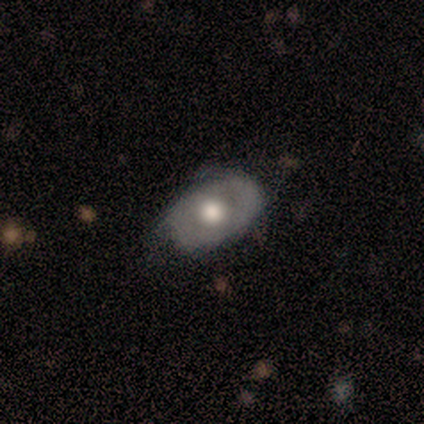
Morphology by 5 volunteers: smooth_or_featured: featured or disk (p=0.80) [alt: smooth p=0.20]
disk_edge_on: no (p=1.00)
bar: no (p=0.75) [alt: weak p=0.25]
has_spiral_arms: no (p=0.75) [alt: yes p=0.25]
bulge_size: moderate (p=0.75) [alt: large p=0.25]
merging: minor disturbance (p=0.60) [alt: none p=0.40]